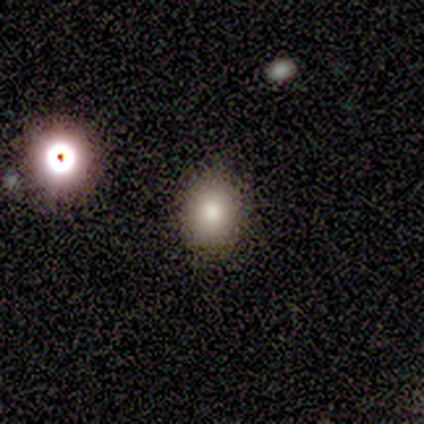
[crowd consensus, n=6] This appears to be a smooth galaxy with no disk features (100%) that is round (67%). Merging: none (100%).